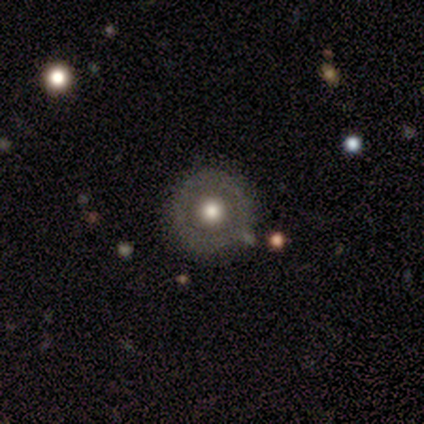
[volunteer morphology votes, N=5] Overall: featured or disk (40%, tied with star or artifact). Edge-on disk: no (100%). Bar: no (100%). Spiral arms: no (100%). Bulge size: moderate (100%). Merging: none (33%, tied with minor disturbance and merger).